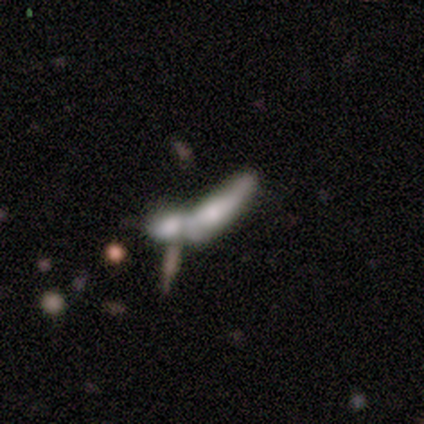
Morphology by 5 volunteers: smooth_or_featured: featured or disk (p=0.80) [alt: smooth p=0.20]
disk_edge_on: no (p=0.75) [alt: yes p=0.25]
bar: weak (p=0.67) [alt: no p=0.33]
has_spiral_arms: no (p=0.67) [alt: yes p=0.33]
bulge_size: large (p=0.67) [alt: small p=0.33]
merging: merger (p=0.60) [alt: minor disturbance p=0.20]